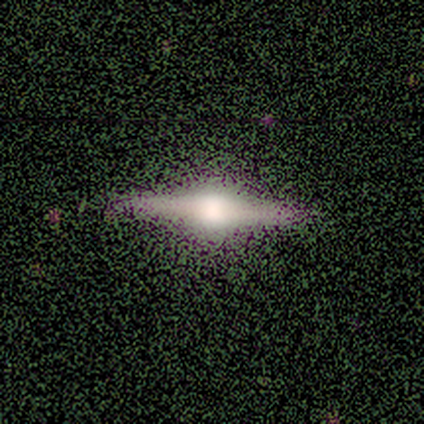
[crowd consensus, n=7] featured or disk 57%, smooth 43%, star or artifact 0%. Down the decision tree: edge-on disk — yes (100%); edge-on bulge — rounded (100%); merging — none (57%).